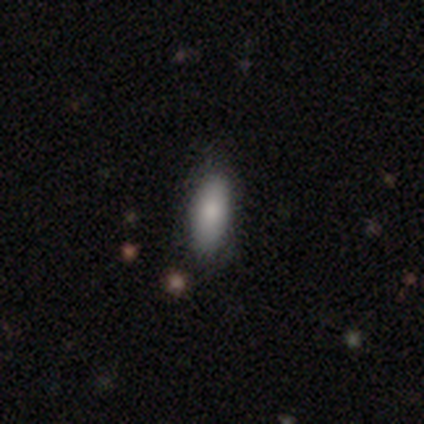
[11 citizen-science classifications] This is clearly a smooth galaxy (82%). How rounded: likely in between (78%). Merging: likely none (73%).